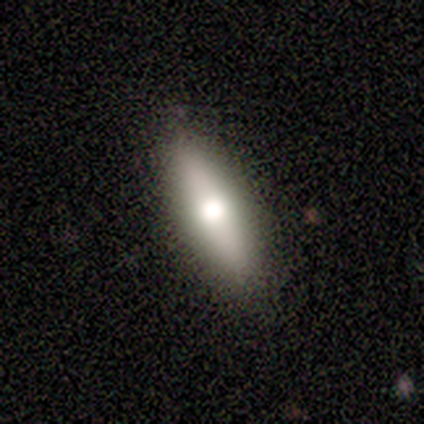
Smooth or featured? 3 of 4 (75%) said smooth. How rounded? 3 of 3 (100%) said in between. Merging? 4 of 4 (100%) said none.